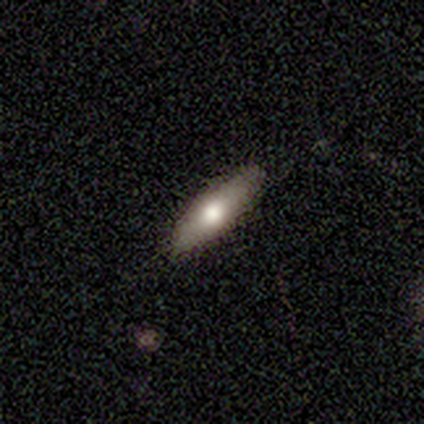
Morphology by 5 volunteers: smooth_or_featured: smooth (p=0.80) [alt: featured or disk p=0.20]
how_rounded: in between (p=0.75) [alt: cigar-shaped p=0.25]
merging: none (p=0.80) [alt: major disturbance p=0.20]